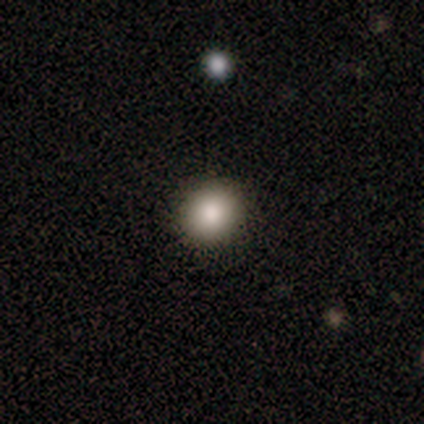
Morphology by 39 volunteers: This is clearly a smooth galaxy (87%). How rounded: likely round (79%). Merging: clearly none (97%).